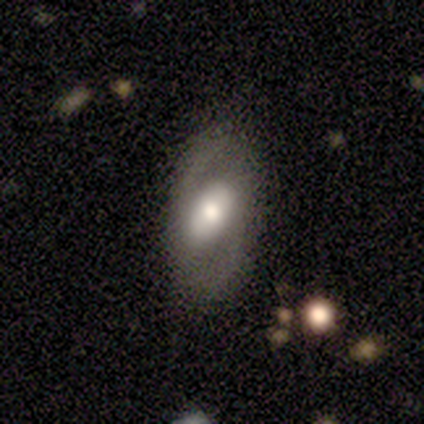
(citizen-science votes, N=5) Overall: featured or disk (100%). Edge-on disk: no (100%). Bar: strong (40%, tied with weak). Spiral arms: no (60%; yes 40%). Bulge size: moderate (60%; large 20%). Merging: none (80%).